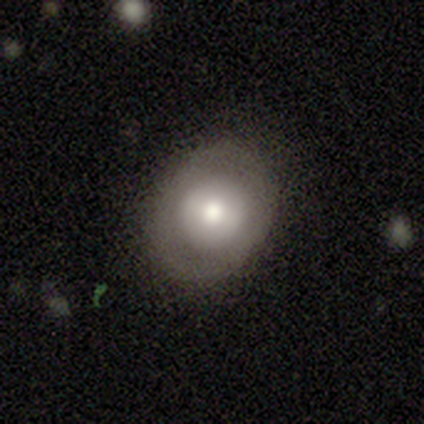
Q: Smooth or featured?
A: smooth (40%); tied with: featured or disk (40%)
Q: How rounded?
A: round (50%); tied with: in between (50%)
Q: Merging?
A: none (75%); runner-up: major disturbance (25%)